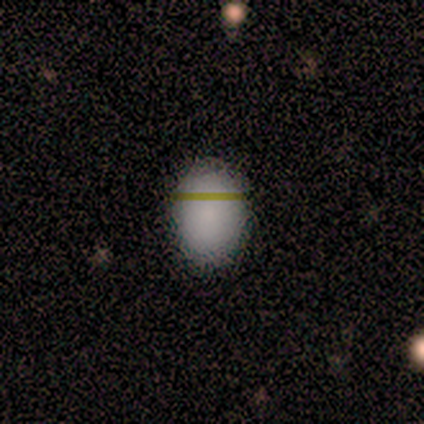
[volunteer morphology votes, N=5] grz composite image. It shows a smooth galaxy with no disk features (60%) that is in between round and cigar-shaped (100%). Merging: none (100%).